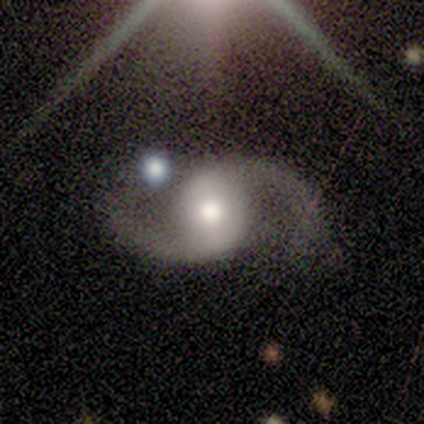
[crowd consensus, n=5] A featured or disk galaxy (100%) with no bar (60%), 2 (100%) loose (60%) spiral arms (100%) and a moderate central bulge (80%). Merging: none (60%).